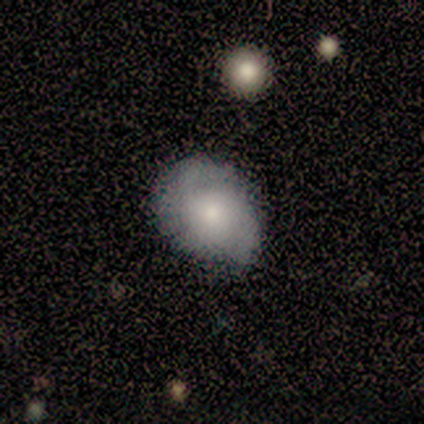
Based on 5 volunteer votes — This appears to be a smooth galaxy with no disk features (60%) that is in between round and cigar-shaped (67%). Merging: none (80%).